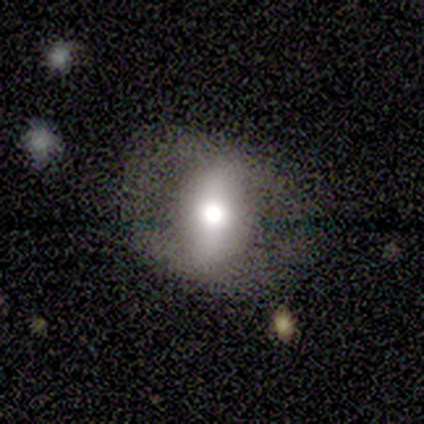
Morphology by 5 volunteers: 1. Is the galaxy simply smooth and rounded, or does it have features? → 60% featured or disk, 20% smooth, 20% star or artifact.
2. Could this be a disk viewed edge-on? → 67% no, 33% yes.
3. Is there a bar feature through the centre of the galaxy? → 50% strong (tied), 50% no (tied), 0% weak.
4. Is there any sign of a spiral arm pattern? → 100% no, 0% yes.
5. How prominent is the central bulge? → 50% large (tied), 50% moderate (tied), 0% dominant, 0% small, 0% none.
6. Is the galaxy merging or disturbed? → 50% major disturbance, 25% none, 25% minor disturbance, 0% merger.